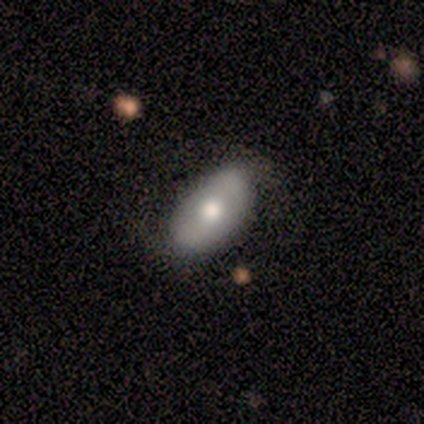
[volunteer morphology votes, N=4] Overall: star or artifact (50%; smooth 25%).